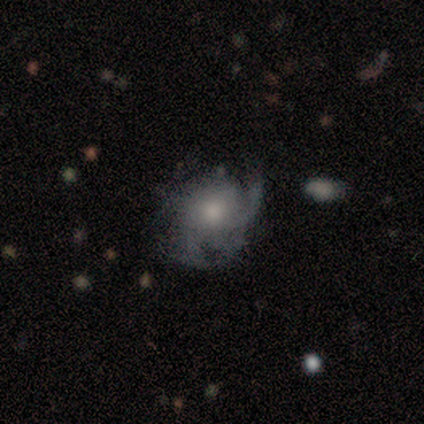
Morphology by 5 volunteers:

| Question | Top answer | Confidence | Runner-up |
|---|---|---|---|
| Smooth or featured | smooth | 40% | tied: featured or disk (40%) |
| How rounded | in between | 100% | — |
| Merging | minor disturbance | 50% | none (25%) |